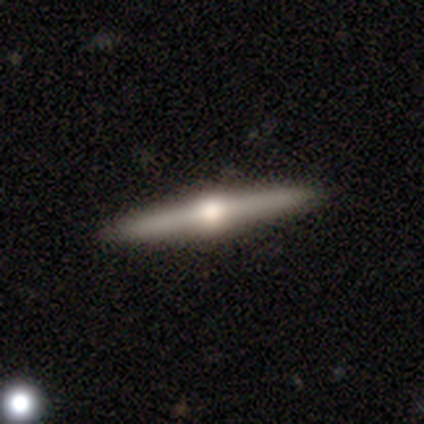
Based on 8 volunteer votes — Overall: featured or disk (88%). Edge-on disk: yes (100%). Edge-on bulge: rounded (100%). Merging: none (75%).